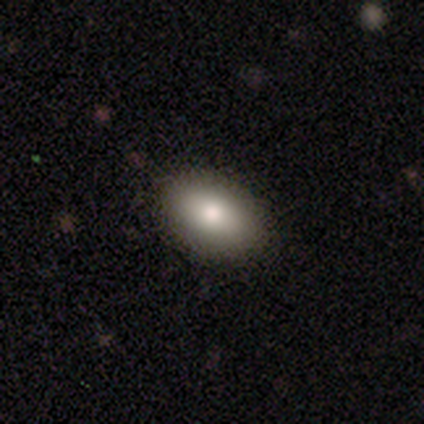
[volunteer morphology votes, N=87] Smooth or featured: smooth — 85% (featured or disk — 10%)
How rounded: in between — 95% (round — 4%)
Merging: none — 92% (minor disturbance — 7%)